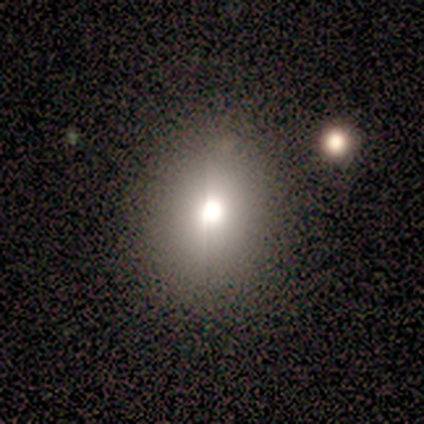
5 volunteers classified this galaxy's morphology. Smooth or featured? 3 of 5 (60%) said smooth. How rounded? 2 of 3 (67%) said round. Merging? 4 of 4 (100%) said none.